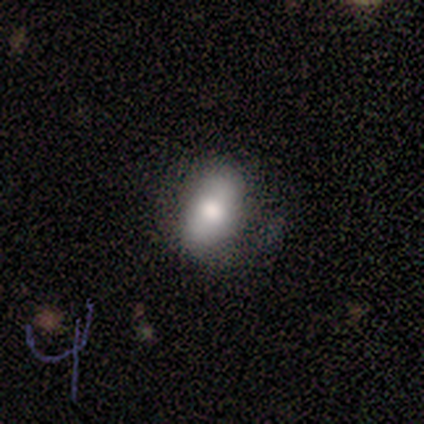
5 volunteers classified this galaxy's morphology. A smooth galaxy with no disk features (100%) that is in between round and cigar-shaped (80%). Merging: none (80%).